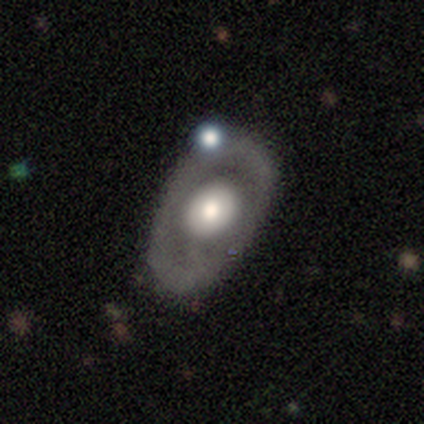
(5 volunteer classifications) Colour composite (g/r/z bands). It shows a smooth galaxy with no disk features (60%) that is in between round and cigar-shaped (100%). Merging: none (40%).